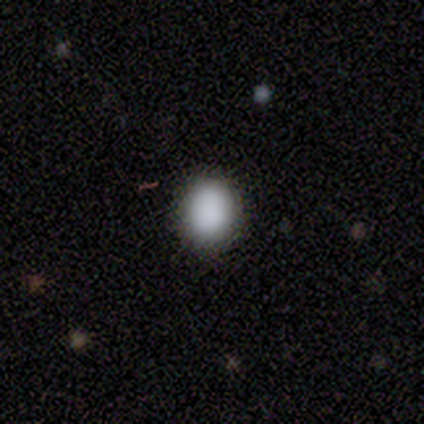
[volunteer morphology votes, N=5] A smooth galaxy with no disk features (80%) that is round (75%). Merging: none (75%).